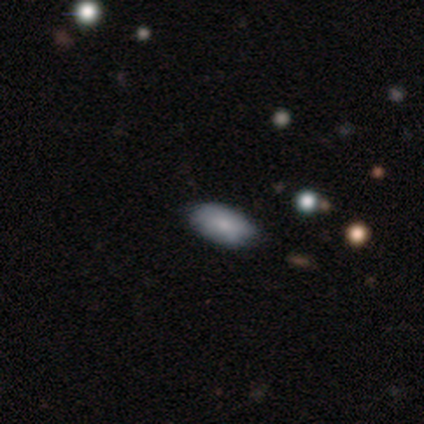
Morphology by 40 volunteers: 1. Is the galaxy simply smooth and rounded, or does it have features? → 78% smooth, 18% featured or disk, 5% star or artifact.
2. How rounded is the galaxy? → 94% in between, 6% round, 0% cigar-shaped.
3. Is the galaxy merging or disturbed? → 82% none, 16% minor disturbance, 3% major disturbance, 0% merger.